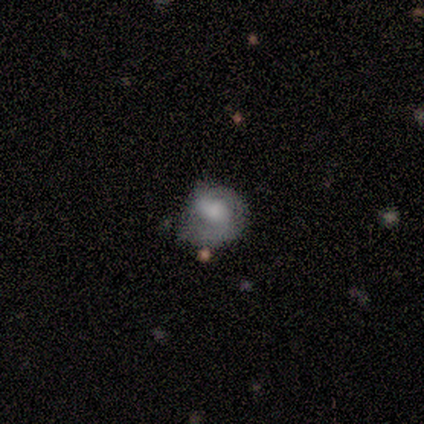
Morphology: type=featured or disk (75%); edge-on=no (100%); bar=strong (67%); spiral arms=yes (67%); winding=tight (50%, tied with medium); arm count=2 (50%, tied with can't tell); bulge=moderate (33%, tied with small and none); merging=none (50%).